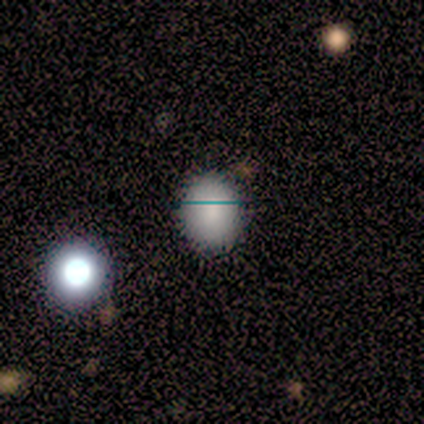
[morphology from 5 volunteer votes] smooth-or-featured: smooth: 100% | featured or disk: 0% | star or artifact: 0%
  how-rounded: in between: 100% | round: 0% | cigar-shaped: 0%
  merging: none: 80% | minor disturbance: 20% | major disturbance: 0% | merger: 0%